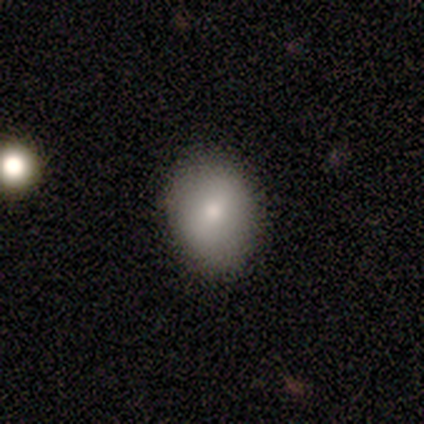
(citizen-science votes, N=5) A smooth galaxy with no disk features (100%) that is in between round and cigar-shaped (60%).

Vote fractions:
- Smooth or featured? smooth: 100% / featured or disk: 0% / star or artifact: 0%
- How rounded? in between: 60% / round: 40% / cigar-shaped: 0%
- Merging? none: 100% / minor disturbance: 0% / major disturbance: 0% / merger: 0%